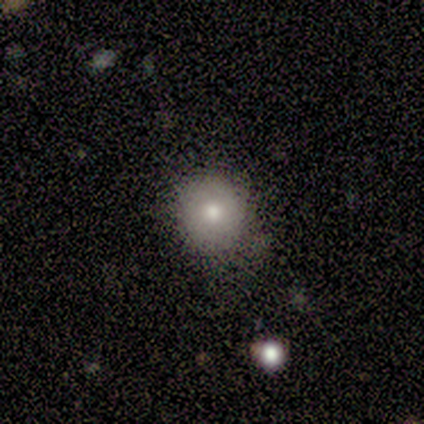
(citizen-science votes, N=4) This is clearly a smooth galaxy (100%). How rounded: clearly round (100%). Merging: likely none (75%).